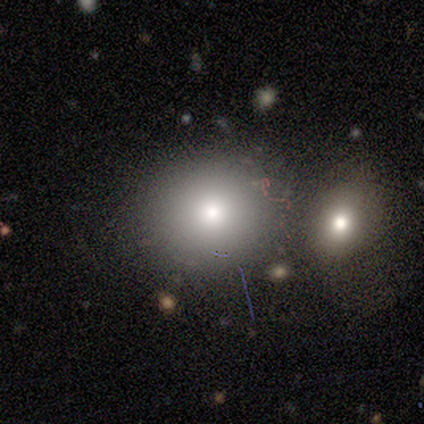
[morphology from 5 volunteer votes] Smooth or featured? smooth (100%)
How rounded? round (100%)
Merging? none (60%)